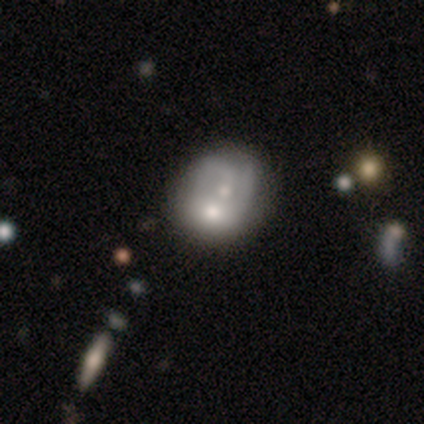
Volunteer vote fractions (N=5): A smooth galaxy with no disk features (60%) that is round (67%). Merging: merger (60%).